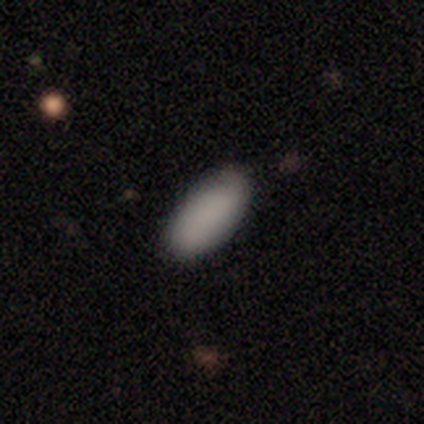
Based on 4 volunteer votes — This is clearly a smooth galaxy (100%). How rounded: likely in between (75%). Merging: clearly none (100%).